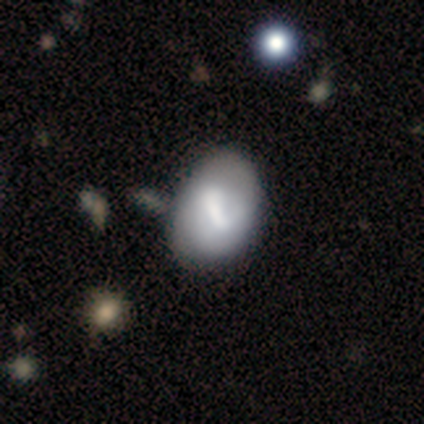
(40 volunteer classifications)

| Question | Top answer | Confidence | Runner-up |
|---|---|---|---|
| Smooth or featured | featured or disk | 48% | smooth (45%) |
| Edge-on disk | no | 100% | — |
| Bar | strong | 47% | weak (42%) |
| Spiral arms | no | 74% | yes (26%) |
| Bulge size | moderate | 32% | tied: none (32%) |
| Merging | none | 38% | minor disturbance (32%) |